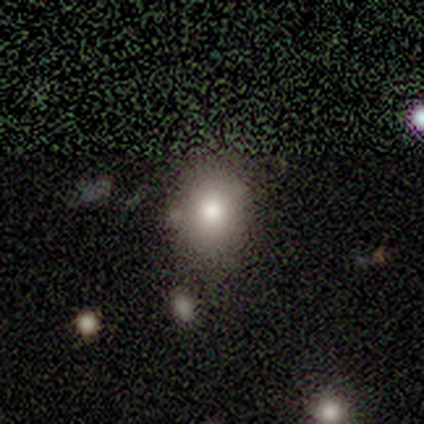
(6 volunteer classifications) smooth 50%, star or artifact 33%, featured or disk 17%. Down the decision tree: how rounded — round (67%); merging — none (100%).